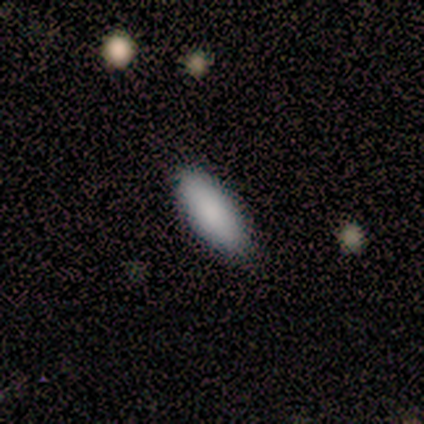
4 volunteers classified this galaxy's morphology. A smooth galaxy with no disk features (100%) that is in between round and cigar-shaped (50%, tied with cigar-shaped). Merging: none (100%).